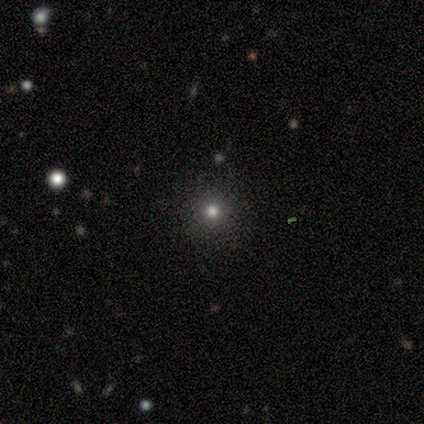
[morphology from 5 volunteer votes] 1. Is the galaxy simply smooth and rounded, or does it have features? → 80% smooth, 20% star or artifact, 0% featured or disk.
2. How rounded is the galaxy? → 100% round, 0% in between, 0% cigar-shaped.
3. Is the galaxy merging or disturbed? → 75% none, 25% minor disturbance, 0% major disturbance, 0% merger.